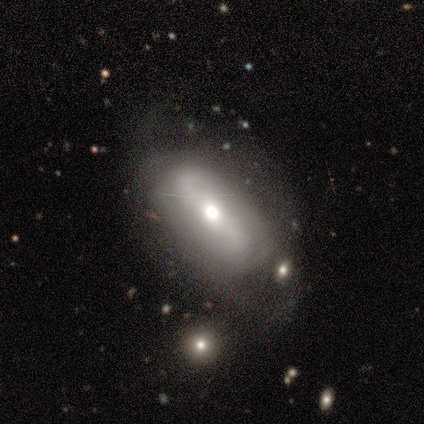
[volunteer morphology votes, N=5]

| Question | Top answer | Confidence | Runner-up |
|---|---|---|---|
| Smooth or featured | featured or disk | 80% | star or artifact (20%) |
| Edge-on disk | no | 100% | — |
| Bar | strong | 50% | tied: no (50%) |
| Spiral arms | yes | 100% | — |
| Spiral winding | medium | 75% | loose (25%) |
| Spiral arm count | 2 | 50% | tied: can't tell (50%) |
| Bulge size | moderate | 75% | large (25%) |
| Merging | minor disturbance | 50% | tied: major disturbance (50%) |